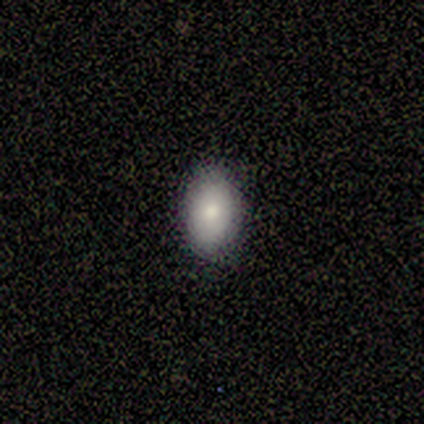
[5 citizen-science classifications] Smooth or featured: smooth — 60% (featured or disk — 40%)
How rounded: in between — 100%
Merging: none — 100%